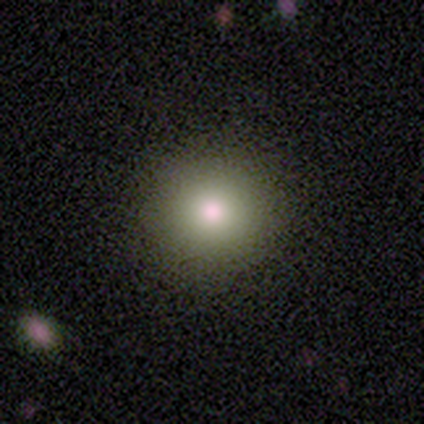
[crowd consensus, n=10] This is clearly a smooth galaxy (80%). How rounded: clearly round (100%). Merging: clearly none (100%).